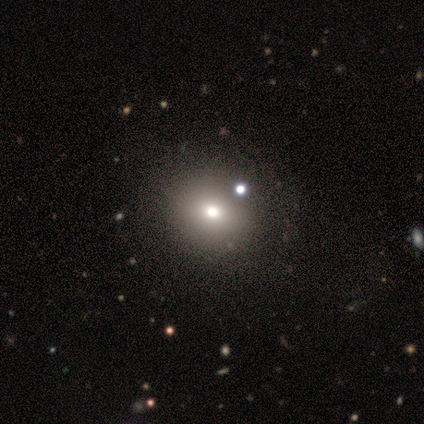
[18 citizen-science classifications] smooth 78%, star or artifact 17%, featured or disk 6%. Down the decision tree: how rounded — round (86%); merging — none (33%).